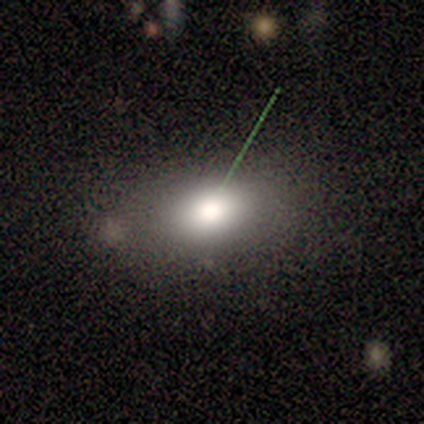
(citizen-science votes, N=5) Overall: smooth (100%). How rounded: in between (100%). Merging: none (100%).